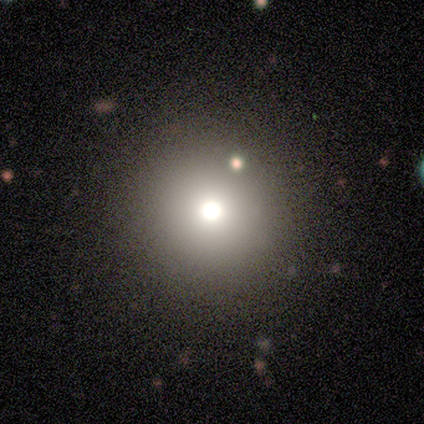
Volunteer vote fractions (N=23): smooth-or-featured: smooth: 65% | star or artifact: 26% | featured or disk: 9%
  how-rounded: round: 100% | in between: 0% | cigar-shaped: 0%
  merging: none: 94% | merger: 6% | minor disturbance: 0% | major disturbance: 0%